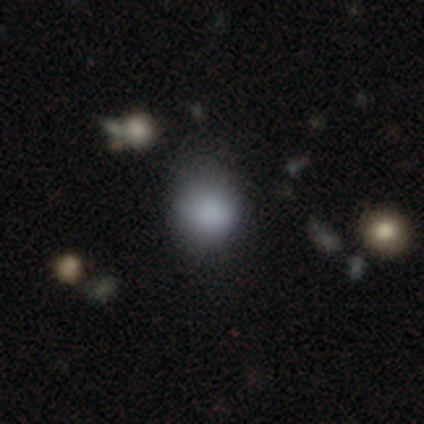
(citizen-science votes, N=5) This is clearly a smooth galaxy (100%). How rounded: clearly round (80%). Merging: likely none (60%).